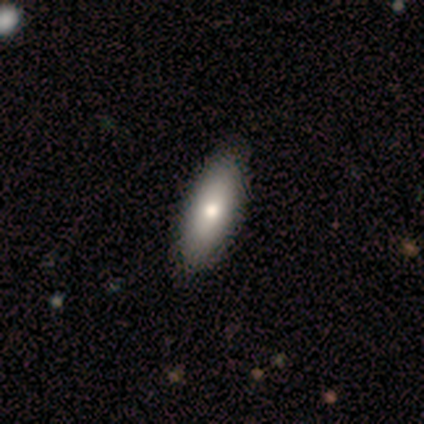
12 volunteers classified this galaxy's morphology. type=smooth (83%); roundness=cigar-shaped (70%); merging=none (92%).